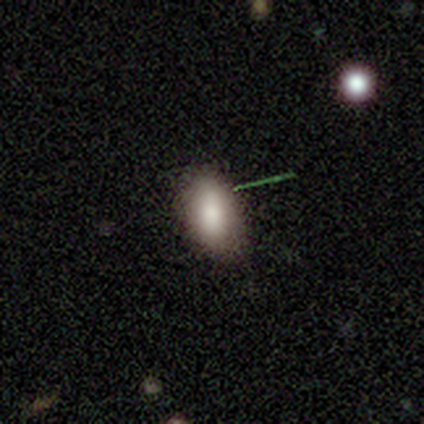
A smooth galaxy with no disk features (87%) that is in between round and cigar-shaped (88%).

Vote fractions:
- Smooth or featured? smooth: 87% / star or artifact: 8% / featured or disk: 5%
- How rounded? in between: 88% / round: 12% / cigar-shaped: 0%
- Merging? none: 80% / minor disturbance: 20% / major disturbance: 0% / merger: 0%